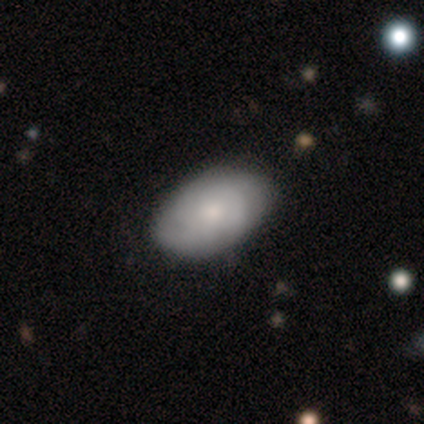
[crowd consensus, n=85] Volunteers were most divided on "smooth or featured": smooth: 52%, featured or disk: 44%, star or artifact: 5%. More confident: how rounded — in between (93%); merging — none (79%).